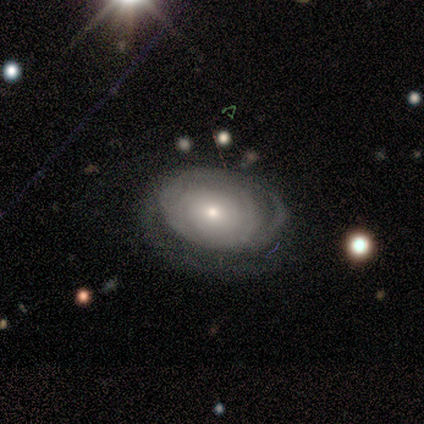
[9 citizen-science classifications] This appears to be a featured or disk galaxy (67%) with no bar (100%), tight (100%) spiral arms (83%) and a small central bulge (50%). Merging: none (88%).